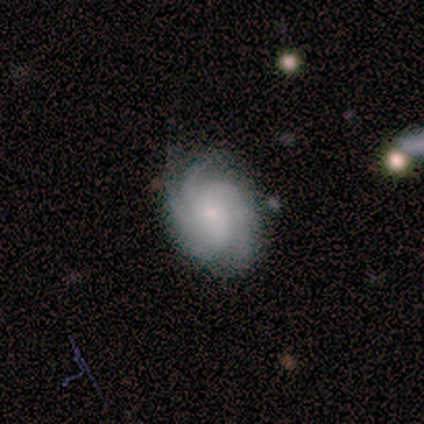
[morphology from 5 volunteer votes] Q: Smooth or featured?
A: featured or disk (80%); runner-up: smooth (20%)
Q: Edge-on disk?
A: no (100%)
Q: Bar?
A: no (75%); runner-up: strong (25%)
Q: Spiral arms?
A: yes (100%)
Q: Spiral winding?
A: tight (75%); runner-up: medium (25%)
Q: Spiral arm count?
A: 4 (50%); runner-up: 2 (25%)
Q: Bulge size?
A: small (100%)
Q: Merging?
A: none (80%); runner-up: minor disturbance (20%)